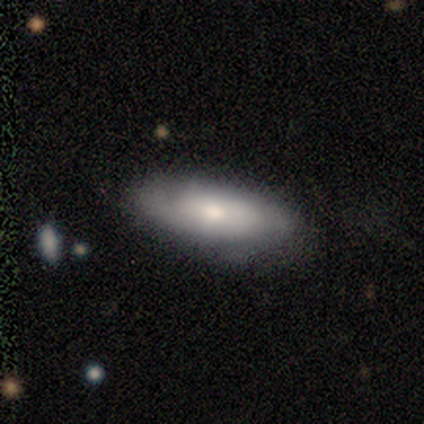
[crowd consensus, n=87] Smooth or featured: smooth — 60% (featured or disk — 34%)
How rounded: in between — 75% (cigar-shaped — 23%)
Merging: none — 67% (minor disturbance — 27%)